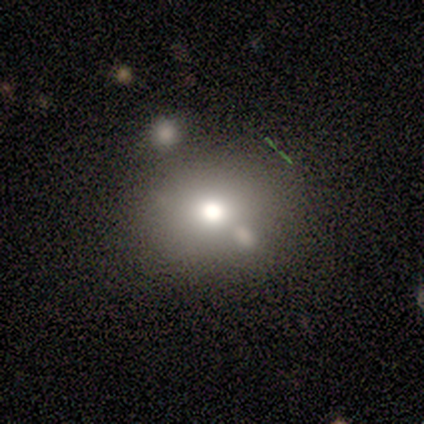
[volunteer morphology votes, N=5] A smooth galaxy with no disk features (80%) that is round (100%).

Vote fractions:
- Smooth or featured? smooth: 80% / star or artifact: 20% / featured or disk: 0%
- How rounded? round: 100% / in between: 0% / cigar-shaped: 0%
- Merging? none: 100% / minor disturbance: 0% / major disturbance: 0% / merger: 0%